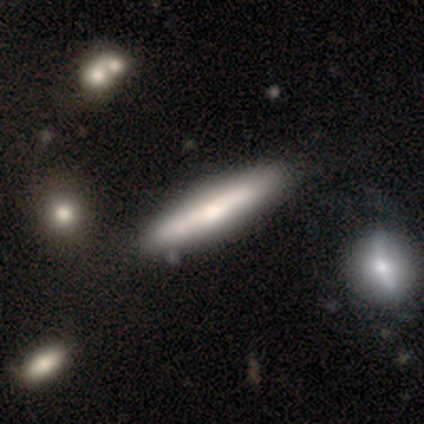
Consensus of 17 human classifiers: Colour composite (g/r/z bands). It shows a featured or disk galaxy (65%) viewed edge-on (73%) with a rounded central bulge (88%). Merging: none (71%).